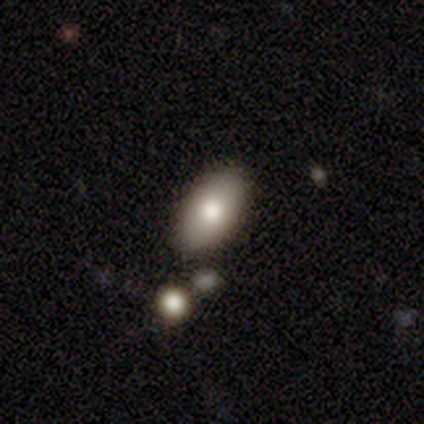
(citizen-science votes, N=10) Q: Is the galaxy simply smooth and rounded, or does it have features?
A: smooth — 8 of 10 (80%).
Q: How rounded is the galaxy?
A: in between — 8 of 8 (100%).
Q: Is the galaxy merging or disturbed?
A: none — 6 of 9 (67%).